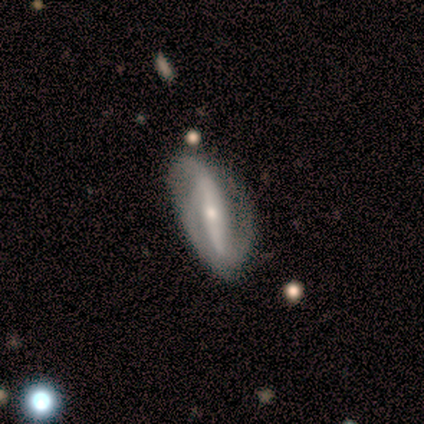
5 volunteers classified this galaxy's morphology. A featured or disk galaxy (100%) with a strong bar (80%), 2 (60%) tight (40%, tied with loose) spiral arms (100%) and a small central bulge (80%). Merging: minor disturbance (60%).